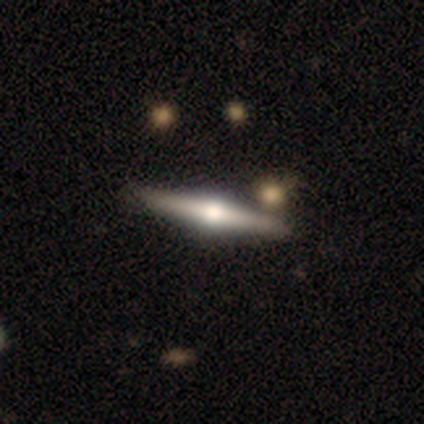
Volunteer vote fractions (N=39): smooth_or_featured: featured or disk (p=0.90) [alt: smooth p=0.05]
disk_edge_on: yes (p=1.00)
edge_on_bulge: rounded (p=0.97) [alt: none p=0.03]
merging: none (p=0.76) [alt: merger p=0.08]